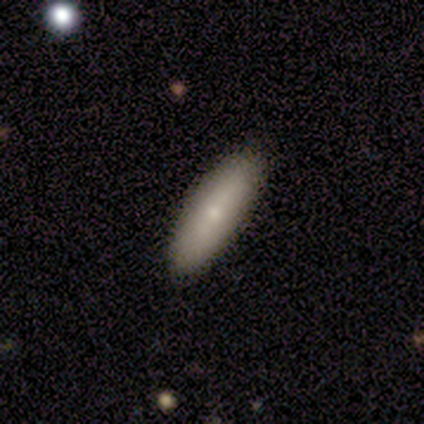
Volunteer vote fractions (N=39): Q: Smooth or featured?
A: smooth (67%); runner-up: featured or disk (23%)
Q: How rounded?
A: in between (50%); runner-up: cigar-shaped (46%)
Q: Merging?
A: none (94%); runner-up: minor disturbance (6%)